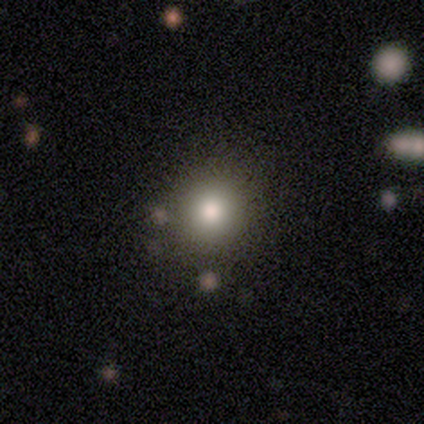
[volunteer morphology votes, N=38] Smooth or featured: smooth — 87% (star or artifact — 13%)
How rounded: round — 88% (in between — 9%)
Merging: none — 88% (minor disturbance — 6%)